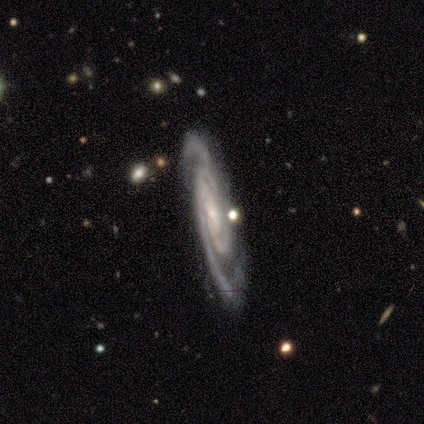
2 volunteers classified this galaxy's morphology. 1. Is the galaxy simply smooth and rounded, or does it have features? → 100% featured or disk, 0% smooth, 0% star or artifact.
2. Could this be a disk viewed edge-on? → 100% no, 0% yes.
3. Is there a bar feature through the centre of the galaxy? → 100% weak, 0% strong, 0% no.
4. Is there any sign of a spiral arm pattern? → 100% yes, 0% no.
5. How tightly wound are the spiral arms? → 100% tight, 0% medium, 0% loose.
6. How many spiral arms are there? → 50% 2 (tied), 50% 3 (tied), 0% 1, 0% 4, 0% more than 4, 0% can't tell.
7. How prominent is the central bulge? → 50% moderate (tied), 50% small (tied), 0% dominant, 0% large, 0% none.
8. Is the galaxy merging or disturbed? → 100% none, 0% minor disturbance, 0% major disturbance, 0% merger.